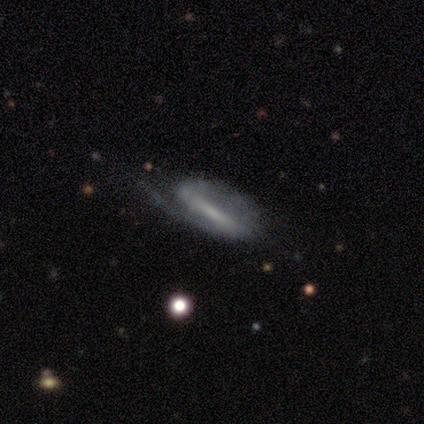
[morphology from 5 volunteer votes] smooth_or_featured: featured or disk (p=0.60) [alt: star or artifact p=0.40]
disk_edge_on: no (p=1.00)
bar: strong (p=0.67) [alt: no p=0.33]
has_spiral_arms: yes (p=0.67) [alt: no p=0.33]
spiral_winding: medium (p=1.00)
spiral_arm_count: 1 (p=0.50) [tied with: 2 p=0.50]
bulge_size: large (p=0.33) [tied with: small p=0.33, none p=0.33]
merging: none (p=0.33) [tied with: minor disturbance p=0.33, major disturbance p=0.33]